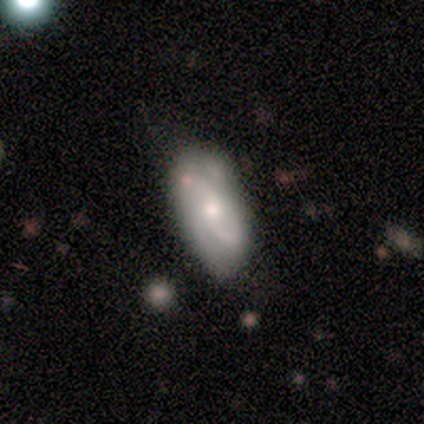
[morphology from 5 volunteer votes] Smooth or featured? featured or disk (60%)
Edge-on disk? no (100%)
Bar? no (100%)
Spiral arms? yes (100%)
Spiral winding? tight (67%)
Spiral arm count? 1 (33%, tied with 2 and 4)
Bulge size? large (33%, tied with moderate and small)
Merging? none (80%)